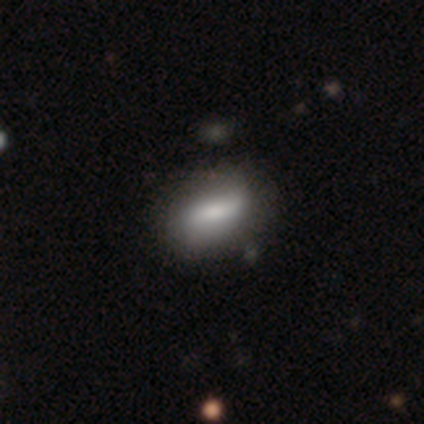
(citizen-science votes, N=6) Smooth or featured?
  - smooth: 50% *
  - featured or disk: 33%
  - star or artifact: 17%
How rounded?
  - in between: 67% *
  - cigar-shaped: 33%
  - round: 0%
Merging?
  - none: 100% *
  - minor disturbance: 0%
  - major disturbance: 0%
  - merger: 0%